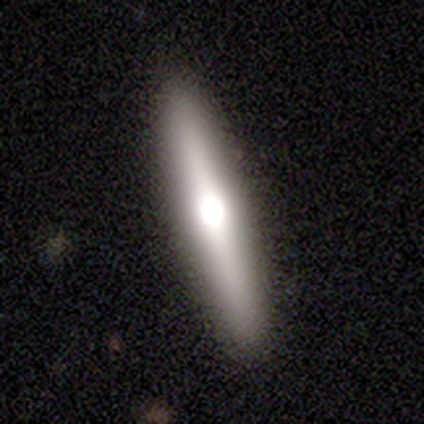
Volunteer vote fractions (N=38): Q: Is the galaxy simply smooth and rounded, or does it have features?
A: featured or disk — 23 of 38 (61%).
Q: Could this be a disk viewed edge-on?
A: yes — 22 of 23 (96%).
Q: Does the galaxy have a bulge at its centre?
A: rounded — 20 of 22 (91%).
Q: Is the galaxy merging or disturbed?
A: none — 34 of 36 (94%).